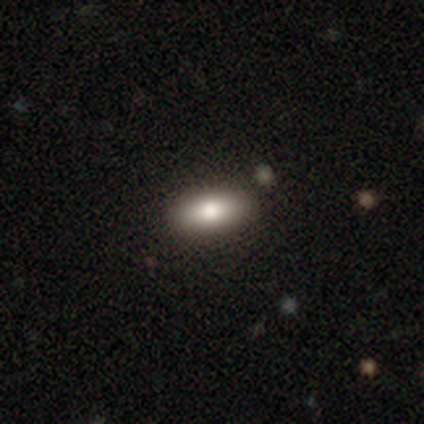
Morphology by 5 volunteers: This appears to be a smooth galaxy with no disk features (80%) that is in between round and cigar-shaped (100%). Merging: none (100%).